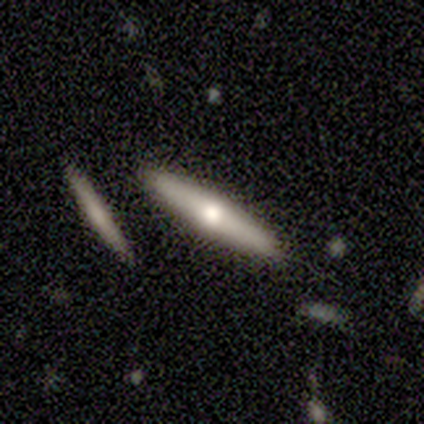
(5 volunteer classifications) smooth_or_featured: smooth (p=0.60) [alt: featured or disk p=0.40]
how_rounded: cigar-shaped (p=1.00)
merging: none (p=0.60) [alt: merger p=0.40]